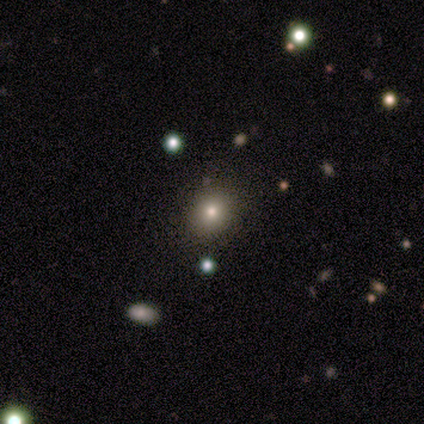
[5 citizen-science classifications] This appears to be a smooth galaxy with no disk features (60%) that is round (100%). Merging: none (75%).